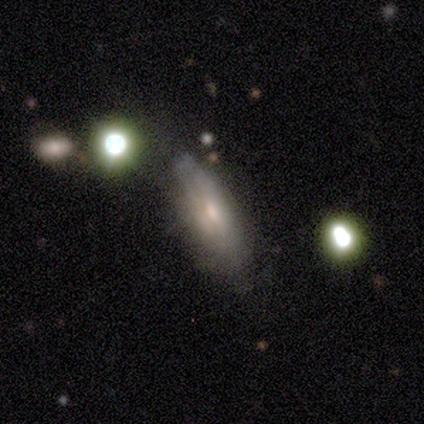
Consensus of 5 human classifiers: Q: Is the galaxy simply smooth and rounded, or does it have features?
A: featured or disk — 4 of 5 (80%).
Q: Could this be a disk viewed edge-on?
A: yes — 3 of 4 (75%).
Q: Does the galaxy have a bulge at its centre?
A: rounded — 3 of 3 (100%).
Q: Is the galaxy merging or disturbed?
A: minor disturbance — 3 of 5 (60%).